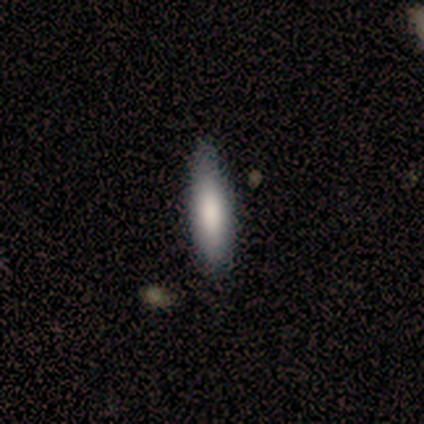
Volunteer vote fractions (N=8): Smooth or featured?
  - smooth: 88% *
  - featured or disk: 12%
  - star or artifact: 0%
How rounded?
  - cigar-shaped: 86% *
  - in between: 14%
  - round: 0%
Merging?
  - none: 62% *
  - minor disturbance: 25%
  - merger: 12%
  - major disturbance: 0%